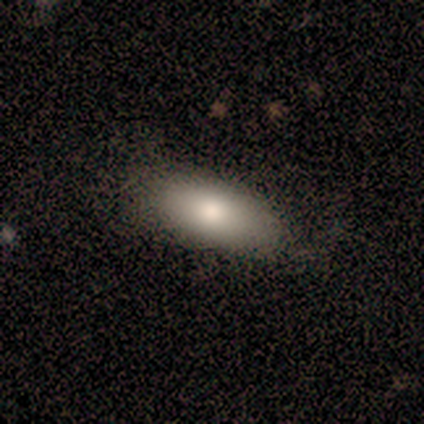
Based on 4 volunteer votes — A smooth galaxy with no disk features (100%) that is in between round and cigar-shaped (100%). Merging: none (75%).